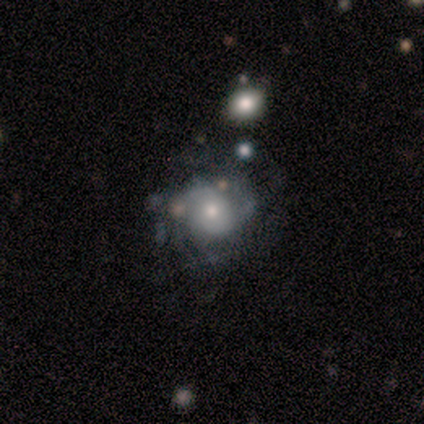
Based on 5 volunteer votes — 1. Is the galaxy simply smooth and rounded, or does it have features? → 80% featured or disk, 20% smooth, 0% star or artifact.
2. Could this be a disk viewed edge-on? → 100% no, 0% yes.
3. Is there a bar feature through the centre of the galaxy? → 100% no, 0% strong, 0% weak.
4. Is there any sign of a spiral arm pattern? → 50% yes (tied), 50% no (tied).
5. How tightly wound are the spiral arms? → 100% medium, 0% tight, 0% loose.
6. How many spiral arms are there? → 100% 2, 0% 1, 0% 3, 0% 4, 0% more than 4, 0% can't tell.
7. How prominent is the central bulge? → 75% moderate, 25% small, 0% dominant, 0% large, 0% none.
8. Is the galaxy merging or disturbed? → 40% none (tied), 40% minor disturbance (tied), 20% merger, 0% major disturbance.